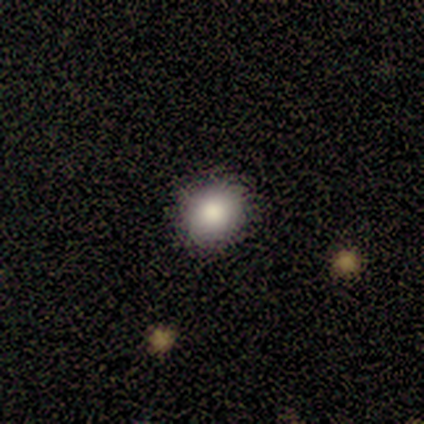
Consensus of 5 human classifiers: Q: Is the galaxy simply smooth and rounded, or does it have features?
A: smooth — 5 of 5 (100%).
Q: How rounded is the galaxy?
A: round — 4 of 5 (80%).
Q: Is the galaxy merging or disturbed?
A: none — 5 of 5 (100%).